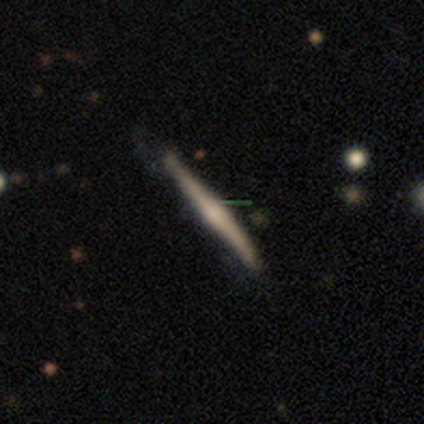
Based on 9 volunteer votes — This is possibly a featured or disk galaxy (56%). It is clearly viewed edge-on (80%). Edge-on bulge: possibly none (50%, tied with rounded). Merging: likely none (67%).